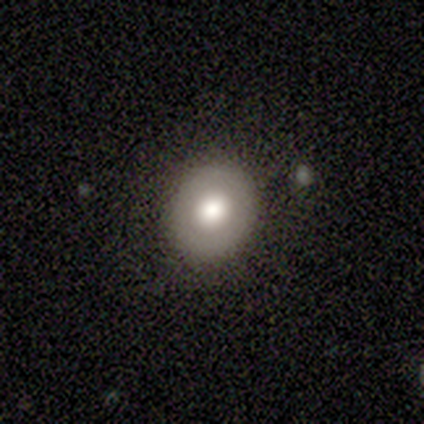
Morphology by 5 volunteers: type=smooth (100%); roundness=in between (60%); merging=none (100%).